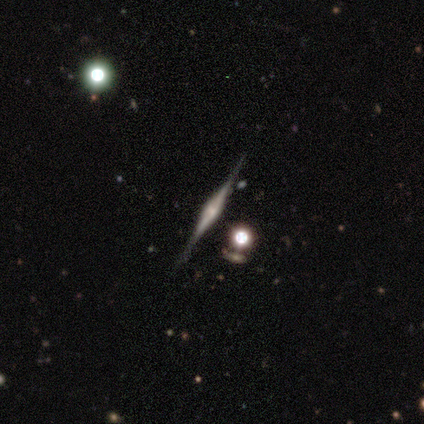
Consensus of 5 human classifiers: Volunteers were most divided on "edge-on bulge": rounded: 75%, boxy: 25%, none: 0%. More confident: edge-on disk — yes (100%); merging — none (100%); smooth or featured — featured or disk (80%).